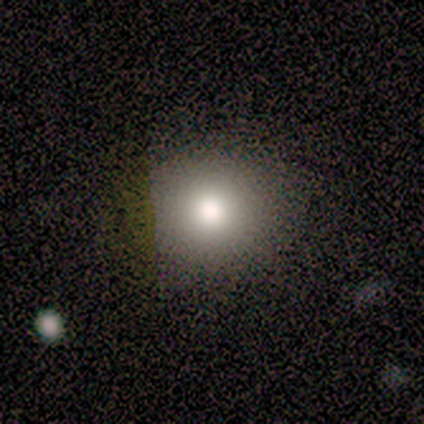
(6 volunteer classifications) Volunteers were most divided on "smooth or featured": smooth: 83%, star or artifact: 17%, featured or disk: 0%. More confident: how rounded — round (100%); merging — none (100%).